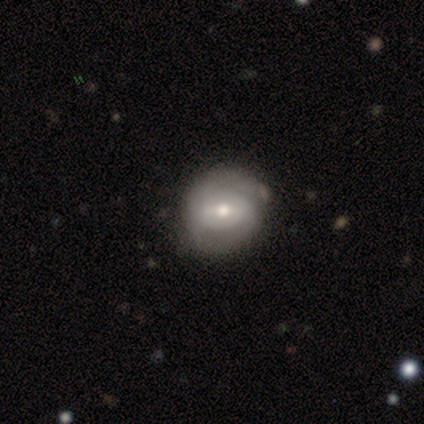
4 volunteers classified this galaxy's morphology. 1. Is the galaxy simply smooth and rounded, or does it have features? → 75% featured or disk, 25% smooth, 0% star or artifact.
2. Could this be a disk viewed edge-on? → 100% no, 0% yes.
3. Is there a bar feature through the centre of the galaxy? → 33% strong (tied), 33% weak (tied), 33% no (tied).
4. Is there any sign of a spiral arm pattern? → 67% yes, 33% no.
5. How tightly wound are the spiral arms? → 50% tight (tied), 50% medium (tied), 0% loose.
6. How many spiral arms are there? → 50% 2 (tied), 50% can't tell (tied), 0% 1, 0% 3, 0% 4, 0% more than 4.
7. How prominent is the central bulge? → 67% small, 33% moderate, 0% dominant, 0% large, 0% none.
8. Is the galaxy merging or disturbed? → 100% none, 0% minor disturbance, 0% major disturbance, 0% merger.